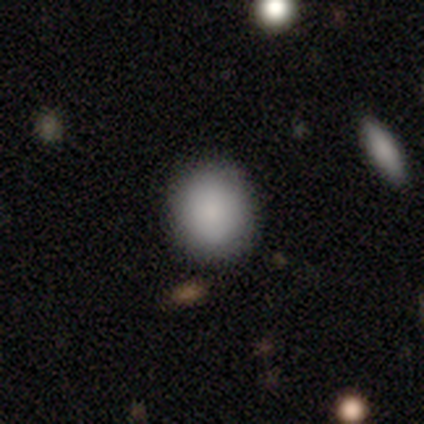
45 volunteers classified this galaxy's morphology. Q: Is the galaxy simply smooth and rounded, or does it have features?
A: smooth — 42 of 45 (93%).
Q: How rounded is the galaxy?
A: round — 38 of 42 (90%).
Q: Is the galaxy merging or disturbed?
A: none — 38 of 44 (86%).